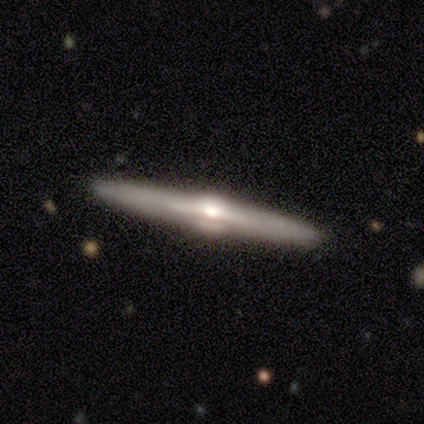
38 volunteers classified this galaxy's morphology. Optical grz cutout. It shows a featured or disk galaxy (89%) viewed edge-on (100%) with a rounded central bulge (97%). Merging: none (95%).